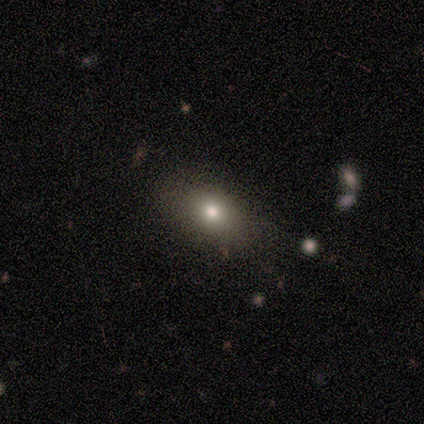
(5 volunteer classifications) Smooth or featured? 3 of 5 (60%) said smooth. How rounded? 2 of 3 (67%) said in between. Merging? 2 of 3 (67%) said none.